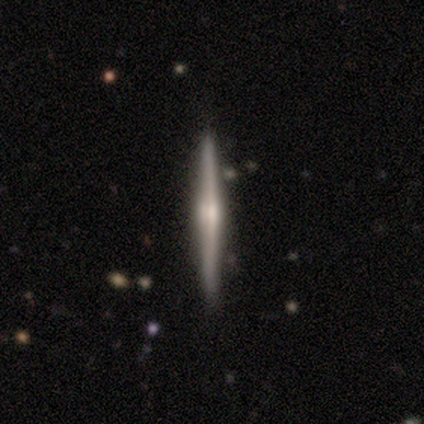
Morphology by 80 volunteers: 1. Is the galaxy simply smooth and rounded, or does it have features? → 80% featured or disk, 16% smooth, 4% star or artifact.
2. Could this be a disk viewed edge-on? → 97% yes, 3% no.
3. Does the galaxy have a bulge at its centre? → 71% rounded, 18% none, 11% boxy.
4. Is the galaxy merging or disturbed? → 48% none, 1% minor disturbance, 1% major disturbance, 1% merger.